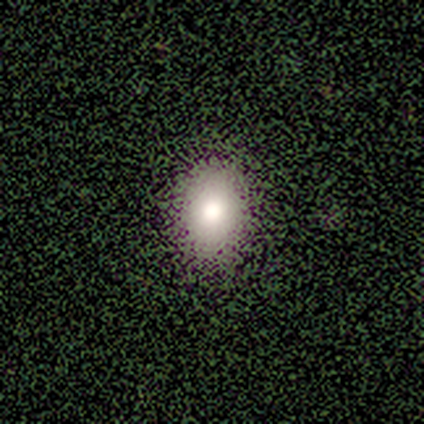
Volunteers were most divided on "smooth or featured": smooth: 60%, featured or disk: 20%, star or artifact: 20%. More confident: how rounded — in between (100%); merging — none (100%).